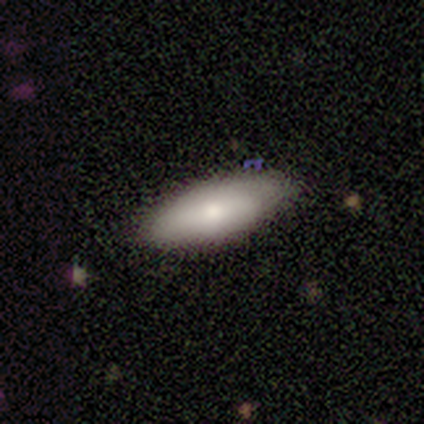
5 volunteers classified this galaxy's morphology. Volunteers were most divided on "how rounded": in between: 75%, cigar-shaped: 25%, round: 0%. More confident: smooth or featured — smooth (80%); merging — none (80%).